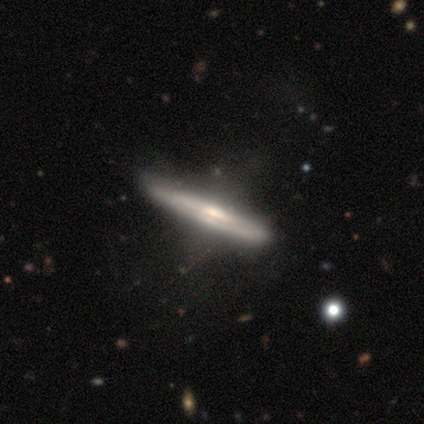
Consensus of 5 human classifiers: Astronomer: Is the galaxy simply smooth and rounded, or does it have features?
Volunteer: featured or disk — 60%.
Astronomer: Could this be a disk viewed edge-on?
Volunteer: yes — 67%.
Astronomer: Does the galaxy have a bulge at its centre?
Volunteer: rounded — 100%.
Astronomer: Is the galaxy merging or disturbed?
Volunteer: none — 50%, tied with major disturbance at 50%.